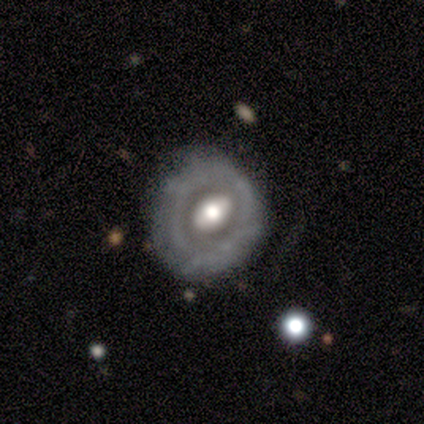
A featured or disk galaxy (71%) with a weak bar (39%, tied with no), no spiral arms (76%) and a moderate central bulge (57%). Merging: none (62%).